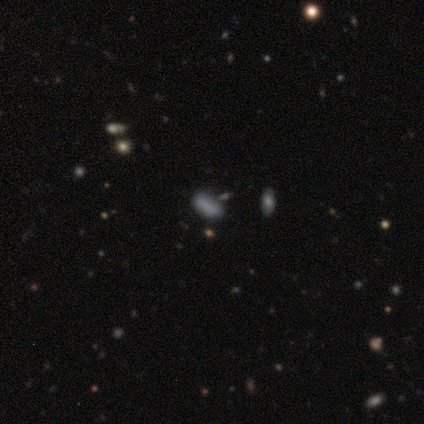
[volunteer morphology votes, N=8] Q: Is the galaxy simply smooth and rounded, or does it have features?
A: smooth — 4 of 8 (50%).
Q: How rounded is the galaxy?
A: in between — 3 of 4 (75%).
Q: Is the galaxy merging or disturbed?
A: none — 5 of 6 (83%).